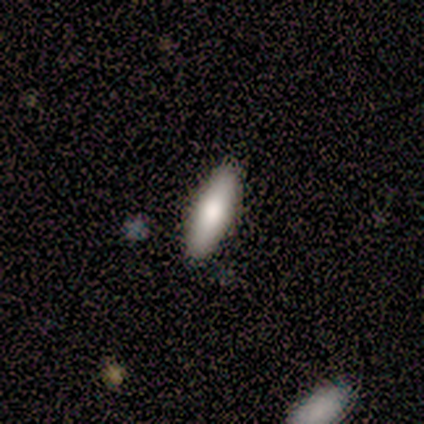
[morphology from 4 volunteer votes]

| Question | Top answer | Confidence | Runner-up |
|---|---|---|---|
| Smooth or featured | smooth | 100% | — |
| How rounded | cigar-shaped | 100% | — |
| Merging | none | 100% | — |